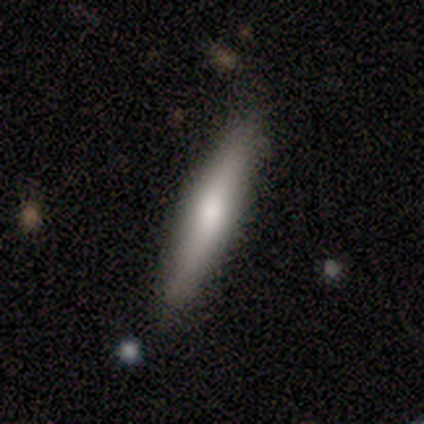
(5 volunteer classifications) Overall: smooth (60%; featured or disk 40%). How rounded: cigar-shaped (100%). Merging: none (100%).